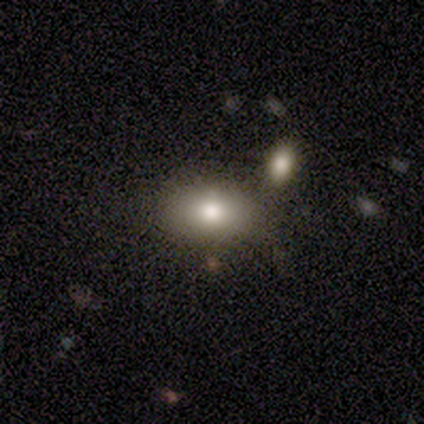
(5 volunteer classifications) A smooth galaxy with no disk features (100%) that is in between round and cigar-shaped (80%). Merging: none (80%).